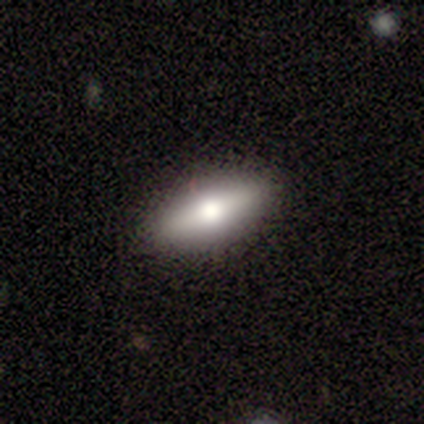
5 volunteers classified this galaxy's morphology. This appears to be a smooth galaxy with no disk features (60%) that is in between round and cigar-shaped (100%). Merging: none (100%).